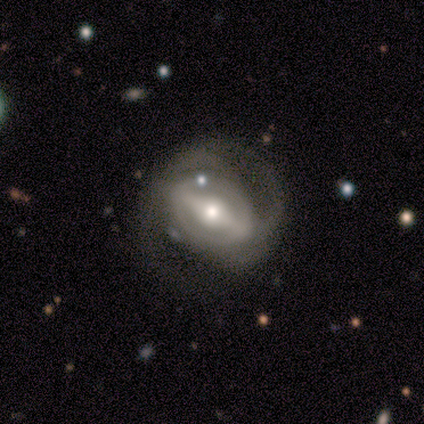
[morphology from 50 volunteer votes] This is clearly a featured or disk galaxy (94%). It is clearly not viewed edge-on (96%). Bar: likely strong (78%). Spiral arm pattern: clearly yes (80%). Spiral arm count: likely 2 (69%). Spiral winding: marginally medium (42%). Central bulge: likely moderate (64%). Merging: likely none (62%).